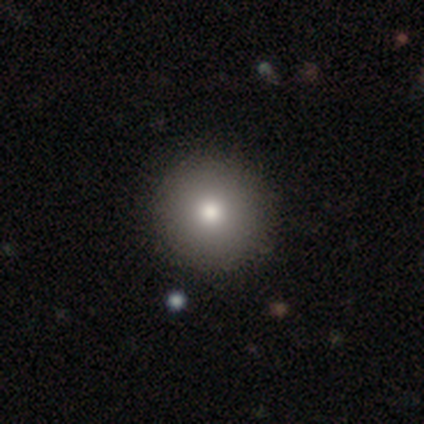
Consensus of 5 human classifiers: Volunteers were most divided on "smooth or featured": smooth: 80%, star or artifact: 20%, featured or disk: 0%. More confident: how rounded — round (100%); merging — none (100%).